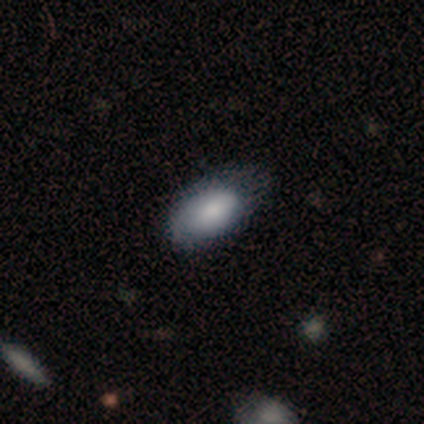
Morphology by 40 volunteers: Volunteers were most divided on "merging": none: 38%, minor disturbance: 28%, major disturbance: 5%, merger: 2%. More confident: how rounded — in between (94%); smooth or featured — smooth (88%).